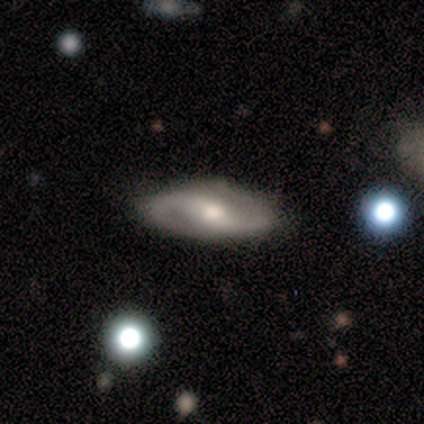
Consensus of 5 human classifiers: Smooth or featured?
  - featured or disk: 100% *
  - smooth: 0%
  - star or artifact: 0%
Edge-on disk?
  - no: 100% *
  - yes: 0%
Bar?
  - strong: 40% * (tied)
  - weak: 40% * (tied)
  - no: 20%
Spiral arms?
  - yes: 80% *
  - no: 20%
Spiral winding?
  - medium: 50% *
  - tight: 25%
  - loose: 25%
Spiral arm count?
  - 2: 100% *
  - 1: 0%
  - 3: 0%
  - 4: 0%
  - more than 4: 0%
  - can't tell: 0%
Bulge size?
  - moderate: 60% *
  - small: 40%
  - dominant: 0%
  - large: 0%
  - none: 0%
Merging?
  - none: 100% *
  - minor disturbance: 0%
  - major disturbance: 0%
  - merger: 0%